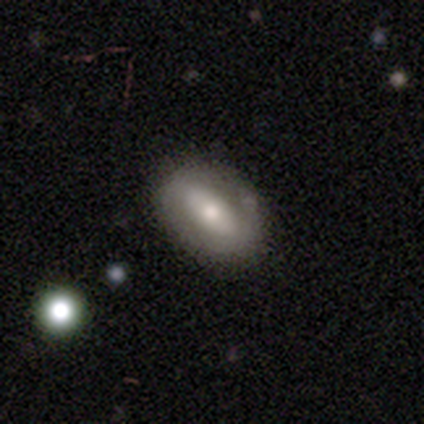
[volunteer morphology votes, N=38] Overall: featured or disk (55%; smooth 39%). Edge-on disk: no (95%). Bar: no (40%; strong 30%). Spiral arms: no (60%; yes 40%). Bulge size: moderate (70%). Merging: none (64%; minor disturbance 25%).